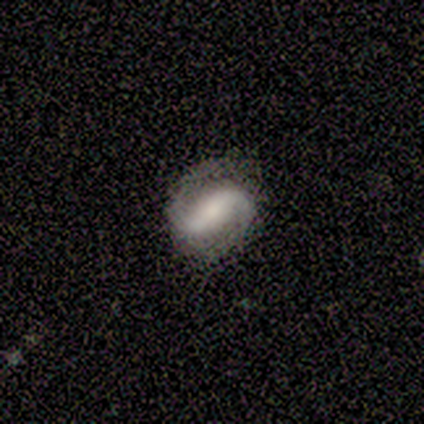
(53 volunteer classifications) This appears to be a featured or disk galaxy (87%) with a strong bar (61%), 2 (98%) medium (35%) spiral arms (100%) and a moderate central bulge (30%). Merging: none (76%).